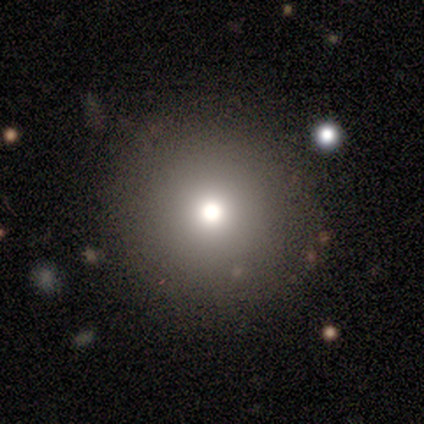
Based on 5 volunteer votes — A smooth galaxy with no disk features (80%) that is round (100%).

Vote fractions:
- Smooth or featured? smooth: 80% / star or artifact: 20% / featured or disk: 0%
- How rounded? round: 100% / in between: 0% / cigar-shaped: 0%
- Merging? none: 100% / minor disturbance: 0% / major disturbance: 0% / merger: 0%